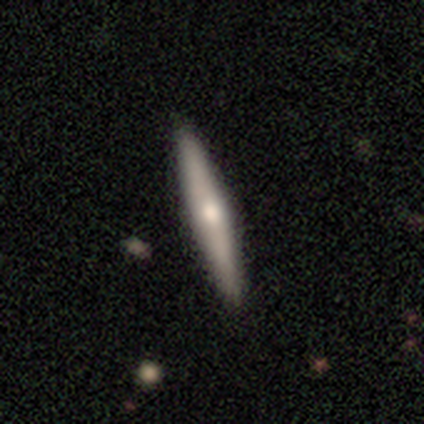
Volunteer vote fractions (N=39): Volunteers were most divided on "smooth or featured": featured or disk: 69%, smooth: 31%, star or artifact: 0%. More confident: edge-on disk — yes (96%); merging — none (85%); edge-on bulge — rounded (81%).